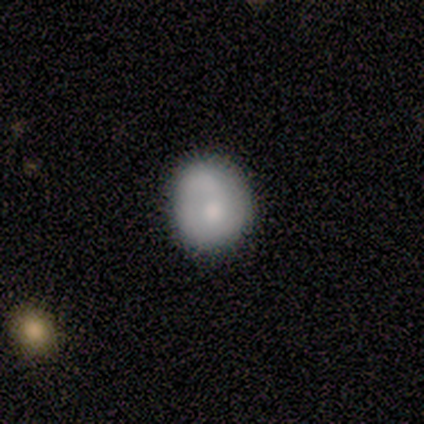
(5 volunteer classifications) Smooth or featured? 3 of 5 (60%) said featured or disk. Edge-on disk? 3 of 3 (100%) said no. Bar? 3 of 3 (100%) said no. Spiral arms? 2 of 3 (67%) said yes. Spiral winding? 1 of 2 (50%, tied with loose) said tight. Spiral arm count? 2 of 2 (100%) said 1. Bulge size? 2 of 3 (67%) said moderate. Merging? 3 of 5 (60%) said none.